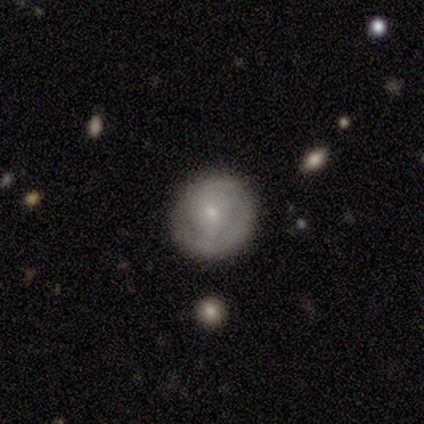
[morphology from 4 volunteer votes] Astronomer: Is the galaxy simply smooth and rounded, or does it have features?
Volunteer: featured or disk — 75%.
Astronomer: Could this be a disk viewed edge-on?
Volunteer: no — 100%.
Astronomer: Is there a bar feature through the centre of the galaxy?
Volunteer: no — 67%.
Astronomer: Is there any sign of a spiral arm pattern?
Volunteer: yes — 67%.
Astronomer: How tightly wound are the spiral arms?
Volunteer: tight — 100%.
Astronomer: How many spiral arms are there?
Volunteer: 2 — 50%, tied with can't tell at 50%.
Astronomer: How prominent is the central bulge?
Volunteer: small — 67%.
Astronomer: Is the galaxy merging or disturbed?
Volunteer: none — 100%.